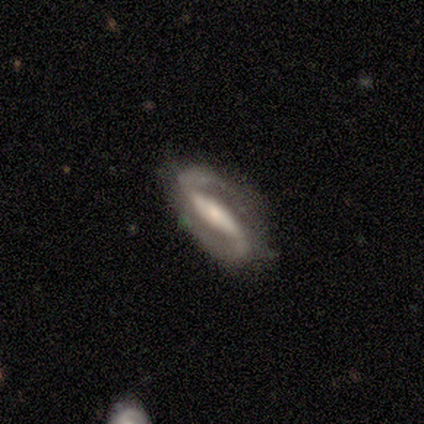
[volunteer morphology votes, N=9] featured or disk 100%, smooth 0%, star or artifact 0%. Down the decision tree: edge-on disk — no (100%); bar — strong (78%); spiral arms — yes (100%); spiral arm count — 2 (100%); spiral winding — tight (33%, tied with medium and loose); bulge size — small (44%); merging — none (89%).